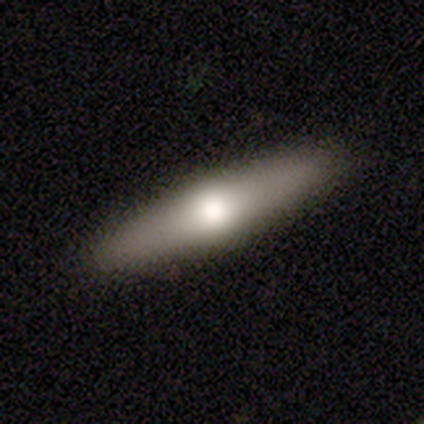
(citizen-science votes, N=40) featured or disk 52%, smooth 45%, star or artifact 2%. Down the decision tree: edge-on disk — yes (90%); edge-on bulge — rounded (89%); merging — none (69%).